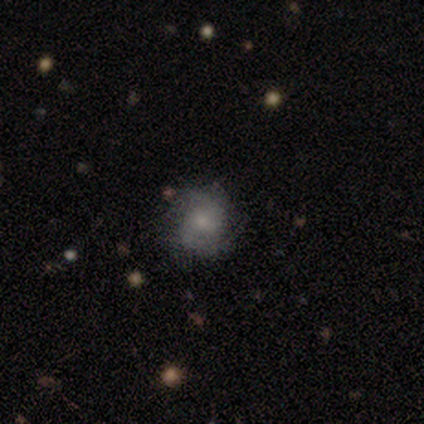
This is clearly a smooth galaxy (100%). How rounded: clearly round (100%). Merging: clearly none (80%).